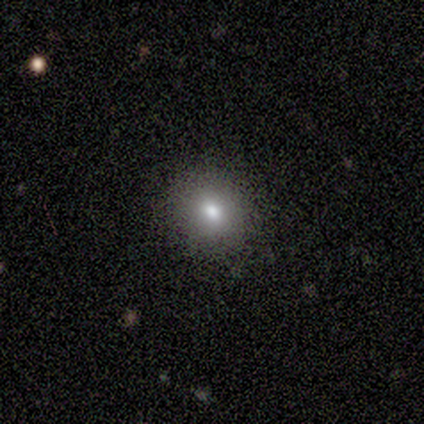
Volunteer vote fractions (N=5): smooth 60%, star or artifact 40%, featured or disk 0%. Down the decision tree: how rounded — round (67%); merging — none (100%).